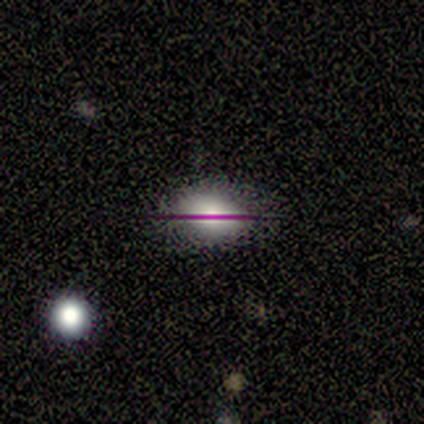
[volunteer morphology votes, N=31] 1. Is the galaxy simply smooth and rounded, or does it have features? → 42% smooth, 32% star or artifact, 26% featured or disk.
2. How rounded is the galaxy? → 92% in between, 8% round, 0% cigar-shaped.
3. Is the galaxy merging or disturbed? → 81% none, 14% minor disturbance, 5% major disturbance, 0% merger.